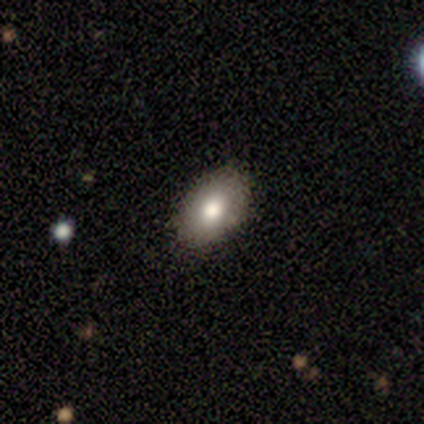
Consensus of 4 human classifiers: Smooth or featured? 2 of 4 (50%, tied with featured or disk) said smooth. How rounded? 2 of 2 (100%) said in between. Merging? 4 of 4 (100%) said none.